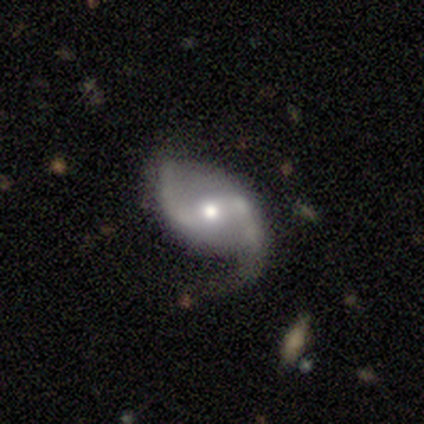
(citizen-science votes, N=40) This appears to be a featured or disk galaxy (95%) with a weak bar (49%), 2 (97%) loose (70%) spiral arms (100%) and a moderate central bulge (54%). Merging: none (68%).